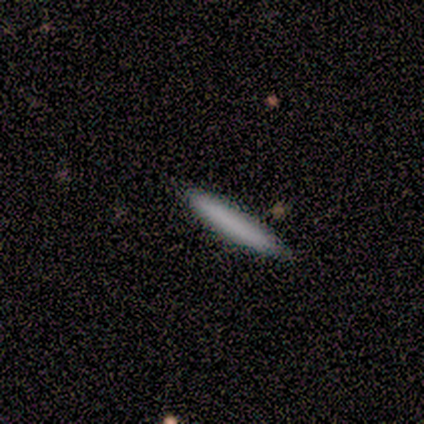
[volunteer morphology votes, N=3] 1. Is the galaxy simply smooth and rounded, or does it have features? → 100% smooth, 0% featured or disk, 0% star or artifact.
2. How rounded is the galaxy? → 100% cigar-shaped, 0% round, 0% in between.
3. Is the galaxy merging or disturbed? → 100% none, 0% minor disturbance, 0% major disturbance, 0% merger.